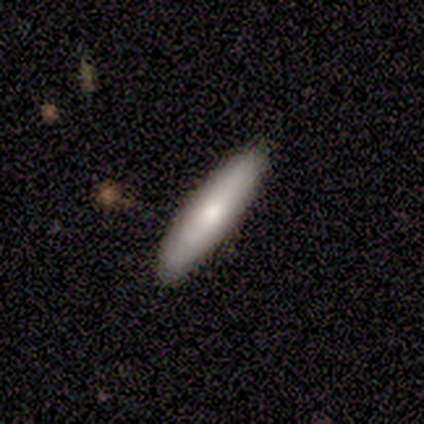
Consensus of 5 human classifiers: Morphology: type=smooth (80%); roundness=cigar-shaped (75%); merging=none (100%).